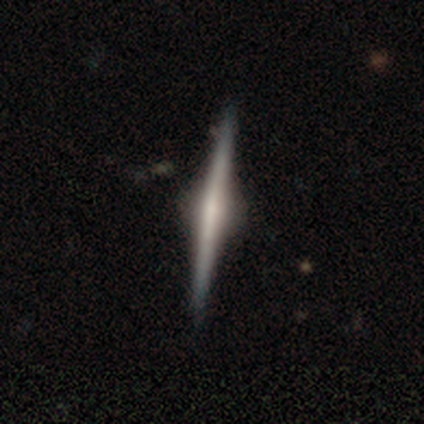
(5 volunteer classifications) Overall: featured or disk (100%). Edge-on disk: yes (100%). Edge-on bulge: rounded (100%). Merging: none (100%).